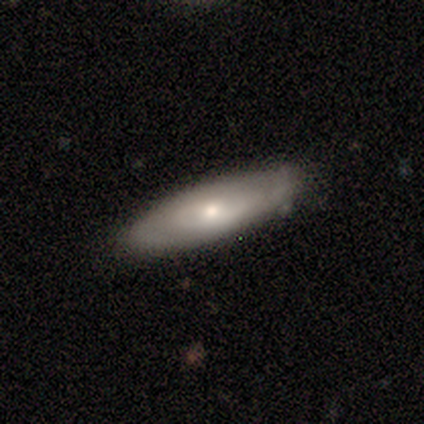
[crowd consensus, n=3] Overall: featured or disk (67%; smooth 33%). Edge-on disk: yes (50%, tied with no). Edge-on bulge: none (100%). Merging: none (100%).